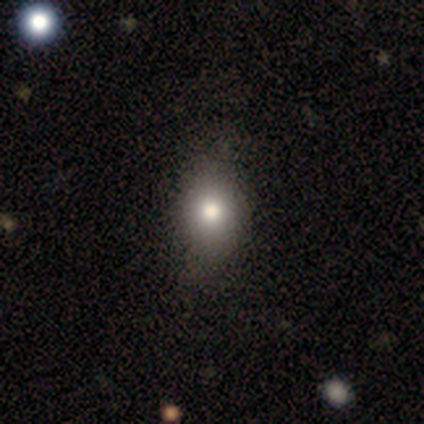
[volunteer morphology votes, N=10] A smooth galaxy with no disk features (90%) that is in between round and cigar-shaped (56%).

Vote fractions:
- Smooth or featured? smooth: 90% / featured or disk: 10% / star or artifact: 0%
- How rounded? in between: 56% / round: 44% / cigar-shaped: 0%
- Merging? none: 70% / minor disturbance: 30% / major disturbance: 0% / merger: 0%